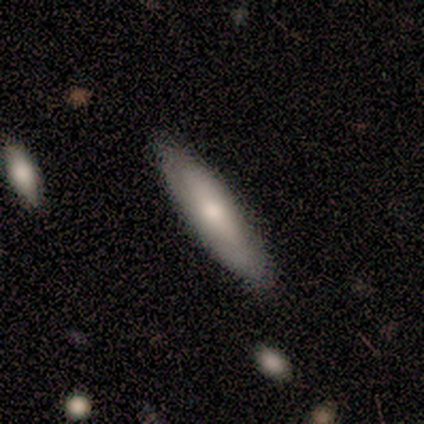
Smooth or featured? 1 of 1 (100%) said featured or disk. Edge-on disk? 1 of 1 (100%) said yes. Edge-on bulge? 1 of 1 (100%) said none. Merging? 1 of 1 (100%) said none.